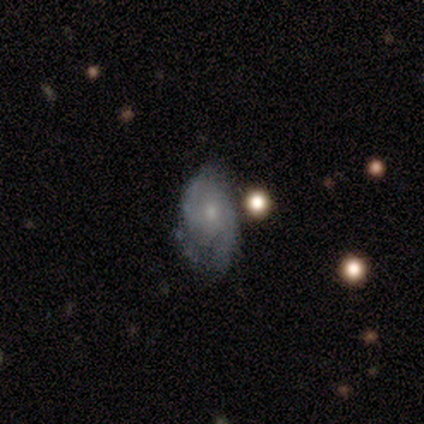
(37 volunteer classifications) A featured or disk galaxy (73%) with no bar (89%), 2 (45%) medium (55%) spiral arms (81%) and a small central bulge (59%).

Vote fractions:
- Smooth or featured? featured or disk: 73% / smooth: 22% / star or artifact: 5%
- Edge-on disk? no: 100% / yes: 0%
- Bar? no: 89% / weak: 11% / strong: 0%
- Spiral arms? yes: 81% / no: 19%
- Spiral winding? medium: 55% / tight: 32% / loose: 14%
- Spiral arm count? 2: 45% / 1: 32% / can't tell: 23% / 3: 0% / 4: 0% / more than 4: 0%
- Bulge size? small: 59% / moderate: 22% / none: 15% / large: 4% / dominant: 0%
- Merging? none: 46% / minor disturbance: 40% / major disturbance: 11% / merger: 3%